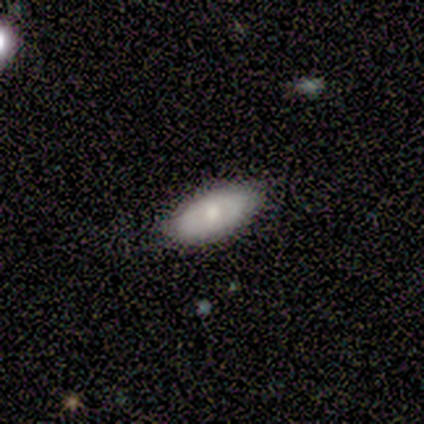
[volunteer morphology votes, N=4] Smooth or featured?
  - smooth: 100% *
  - featured or disk: 0%
  - star or artifact: 0%
How rounded?
  - in between: 100% *
  - round: 0%
  - cigar-shaped: 0%
Merging?
  - none: 50% * (tied)
  - minor disturbance: 50% * (tied)
  - major disturbance: 0%
  - merger: 0%